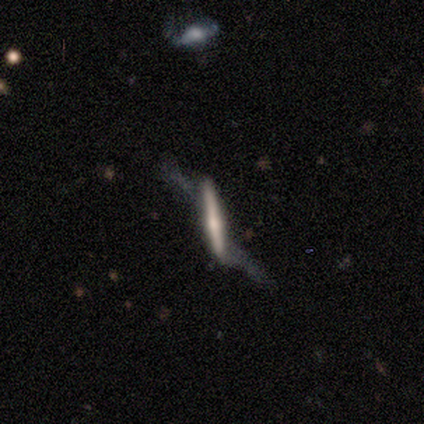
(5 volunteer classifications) This appears to be a featured or disk galaxy (100%) viewed edge-on (80%) with a rounded central bulge (75%). Merging: minor disturbance (80%).